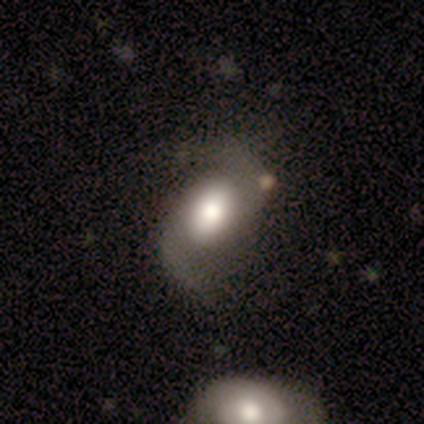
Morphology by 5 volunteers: This appears to be a featured or disk galaxy (100%) with no bar (60%), 2 (100%) loose (80%) spiral arms (100%) and a large central bulge (60%). Merging: none (40%, tied with merger).